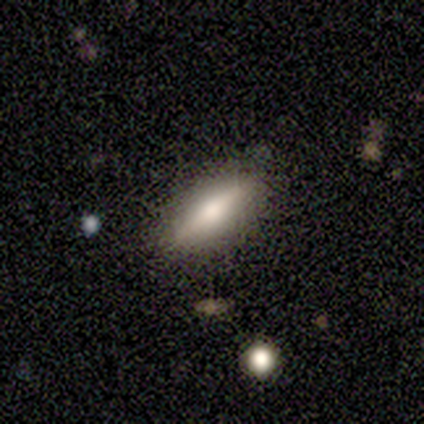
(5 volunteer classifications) smooth 40% (tied), featured or disk 40% (tied), star or artifact 20%. Down the decision tree: how rounded — in between (50%, tied with cigar-shaped); merging — none (100%).